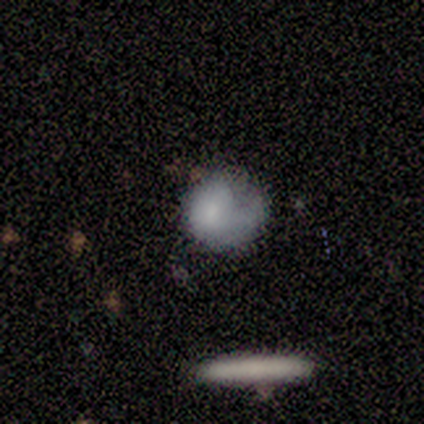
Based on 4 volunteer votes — smooth 75%, featured or disk 25%, star or artifact 0%. Down the decision tree: how rounded — round (100%); merging — none (50%, tied with major disturbance).